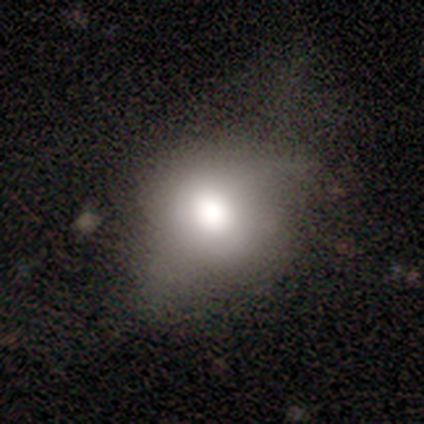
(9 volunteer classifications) smooth-or-featured: smooth: 67% | featured or disk: 22% | star or artifact: 11%
  how-rounded: in between: 67% | round: 33% | cigar-shaped: 0%
  merging: none: 62% | major disturbance: 38% | minor disturbance: 0% | merger: 0%